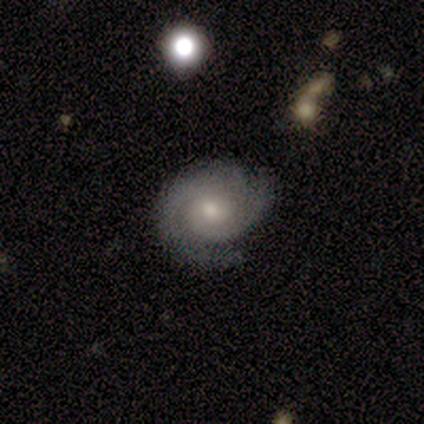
Smooth or featured: featured or disk — 100%
Edge-on disk: no — 100%
Bar: no — 86% (weak — 14%)
Spiral arms: yes — 100%
Spiral winding: tight — 86% (loose — 14%)
Spiral arm count: 2 — 71% (3 — 29%)
Bulge size: moderate — 43% (tied with small — 43%)
Merging: none — 100%